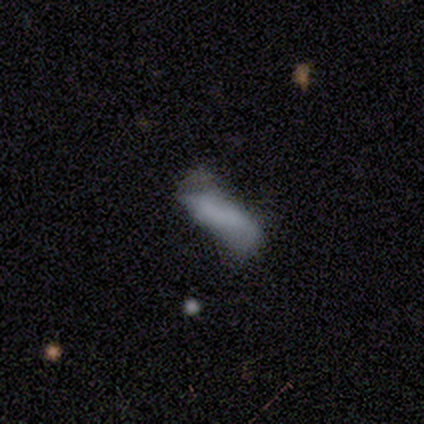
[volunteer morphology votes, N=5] smooth_or_featured: smooth (p=0.80) [alt: featured or disk p=0.20]
how_rounded: cigar-shaped (p=0.75) [alt: in between p=0.25]
merging: minor disturbance (p=0.80) [alt: none p=0.20]